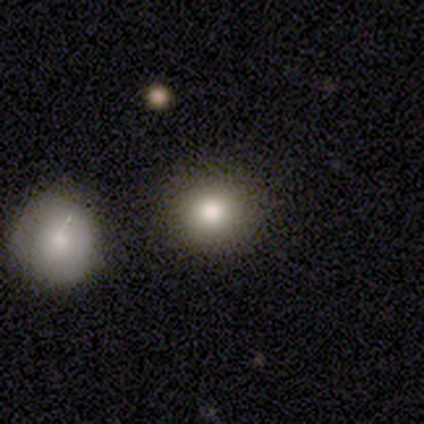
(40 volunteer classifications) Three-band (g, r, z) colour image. It shows a smooth galaxy with no disk features (75%) that is round (100%). Merging: none (88%).